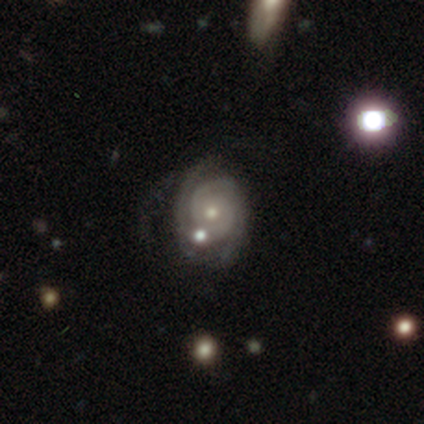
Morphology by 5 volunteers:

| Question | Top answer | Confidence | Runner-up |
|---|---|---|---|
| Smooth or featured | featured or disk | 80% | smooth (20%) |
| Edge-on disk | no | 100% | — |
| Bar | no | 100% | — |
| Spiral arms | yes | 100% | — |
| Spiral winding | tight | 100% | — |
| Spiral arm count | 3 | 75% | 2 (25%) |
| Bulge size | moderate | 50% | tied: small (50%) |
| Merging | minor disturbance | 40% | tied: merger (40%) |